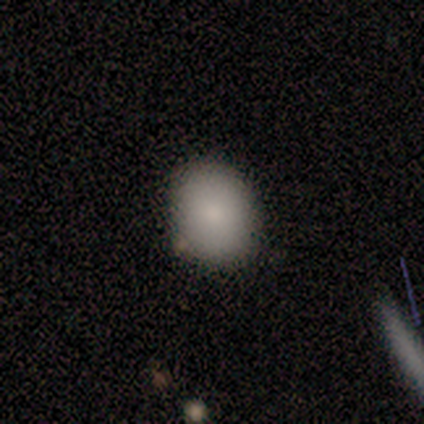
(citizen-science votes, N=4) This is clearly a smooth galaxy (100%). How rounded: possibly round (50%, tied with in between). Merging: clearly none (100%).